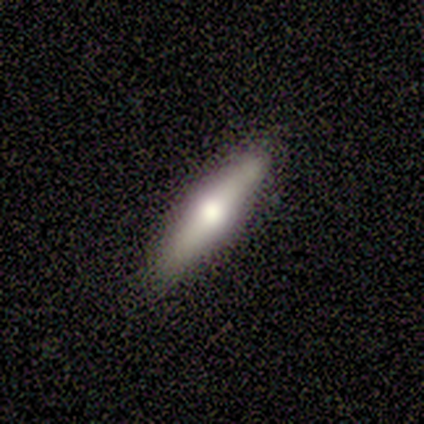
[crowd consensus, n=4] Morphology: type=smooth (75%); roundness=cigar-shaped (100%); merging=none (100%).